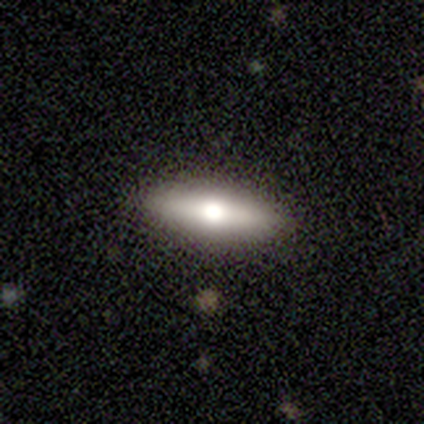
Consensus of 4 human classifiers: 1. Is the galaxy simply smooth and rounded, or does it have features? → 75% smooth, 25% featured or disk, 0% star or artifact.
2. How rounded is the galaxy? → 67% in between, 33% cigar-shaped, 0% round.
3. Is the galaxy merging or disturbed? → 75% none, 25% minor disturbance, 0% major disturbance, 0% merger.